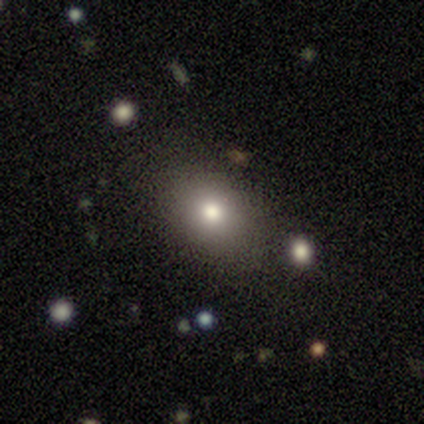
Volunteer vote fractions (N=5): Smooth or featured? 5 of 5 (100%) said smooth. How rounded? 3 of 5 (60%) said in between. Merging? 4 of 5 (80%) said none.